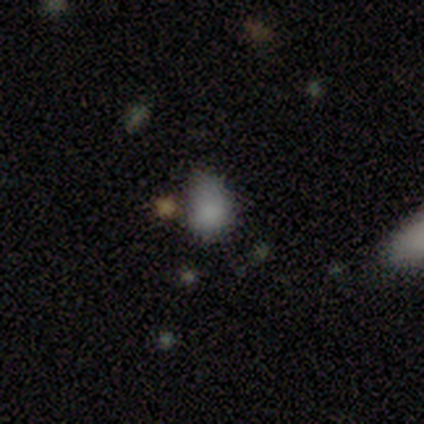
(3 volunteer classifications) Smooth or featured: smooth — 33% (tied with featured or disk — 33%; star or artifact — 33%)
How rounded: round — 100%
Merging: none — 50% (tied with minor disturbance — 50%)